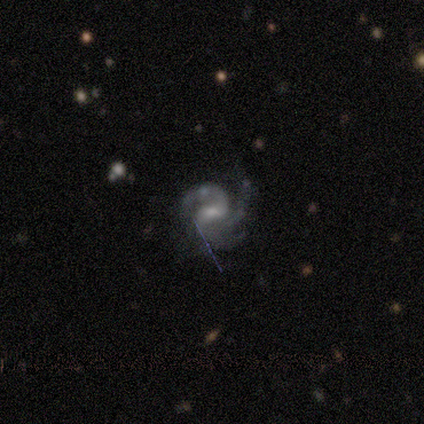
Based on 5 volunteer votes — A featured or disk galaxy (100%) with a weak bar (40%, tied with no), 3 (75%) tight (75%) spiral arms (80%) and a small central bulge (80%). Merging: none (100%).